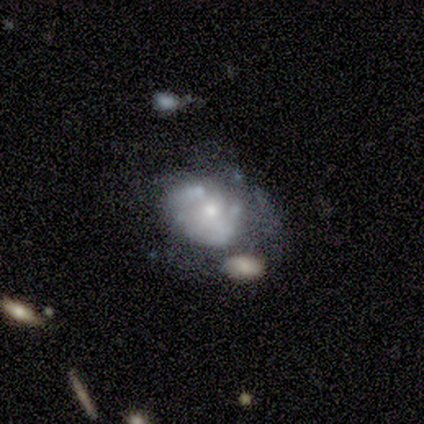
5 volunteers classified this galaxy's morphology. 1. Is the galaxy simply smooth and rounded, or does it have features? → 80% featured or disk, 20% star or artifact, 0% smooth.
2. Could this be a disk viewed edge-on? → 100% no, 0% yes.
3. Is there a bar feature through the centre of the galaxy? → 100% no, 0% strong, 0% weak.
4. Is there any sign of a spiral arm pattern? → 100% no, 0% yes.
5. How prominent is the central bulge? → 50% moderate (tied), 50% small (tied), 0% dominant, 0% large, 0% none.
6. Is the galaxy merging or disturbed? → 50% major disturbance, 25% none, 25% minor disturbance, 0% merger.